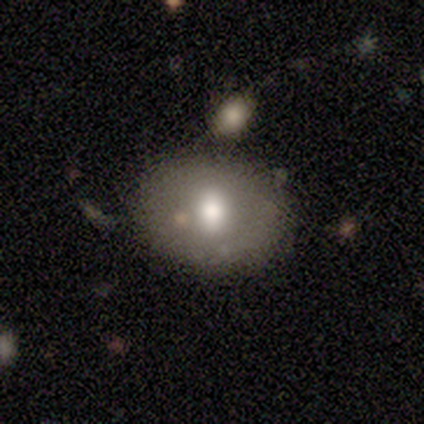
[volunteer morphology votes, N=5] A featured or disk galaxy (60%) with a weak bar (67%), no spiral arms (100%) and a moderate central bulge (67%). Merging: none (100%).